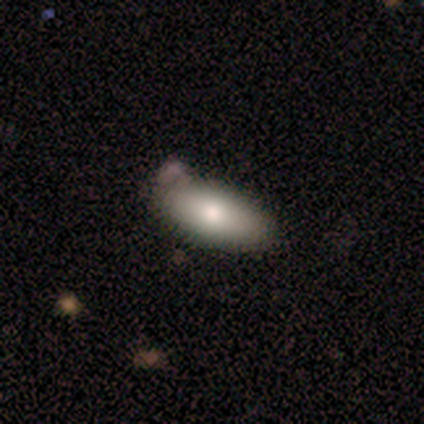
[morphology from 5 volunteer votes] A smooth galaxy with no disk features (80%) that is in between round and cigar-shaped (100%). Merging: none (80%).